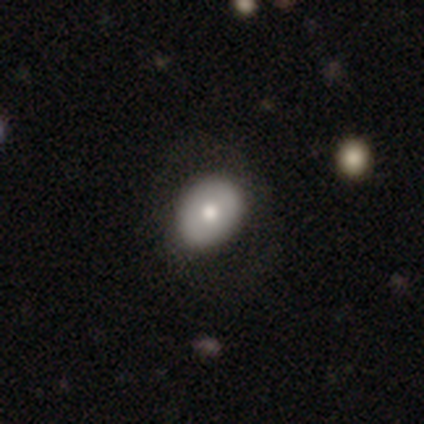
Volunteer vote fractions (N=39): This is likely a smooth galaxy (67%). How rounded: likely in between (77%). Merging: likely none (78%).